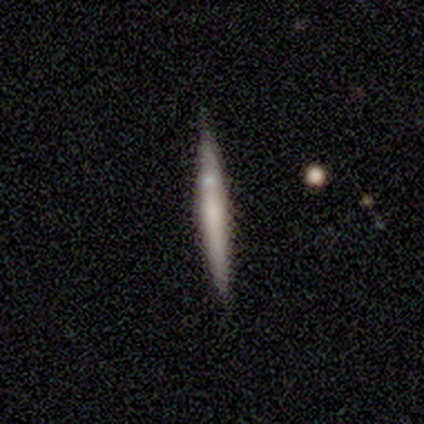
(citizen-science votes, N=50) Smooth or featured? featured or disk (52%)
Edge-on disk? yes (96%)
Edge-on bulge? none (52%)
Merging? none (81%)